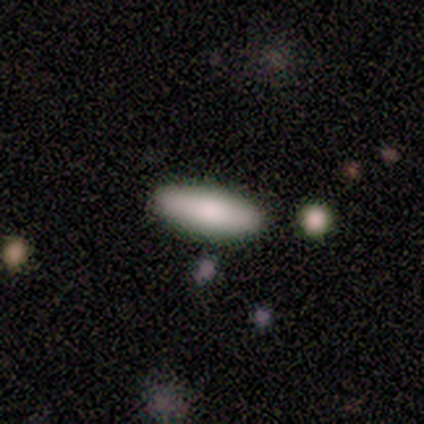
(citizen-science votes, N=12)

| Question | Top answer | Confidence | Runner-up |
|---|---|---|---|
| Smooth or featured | smooth | 75% | featured or disk (17%) |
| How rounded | in between | 78% | cigar-shaped (22%) |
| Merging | none | 82% | minor disturbance (9%) |